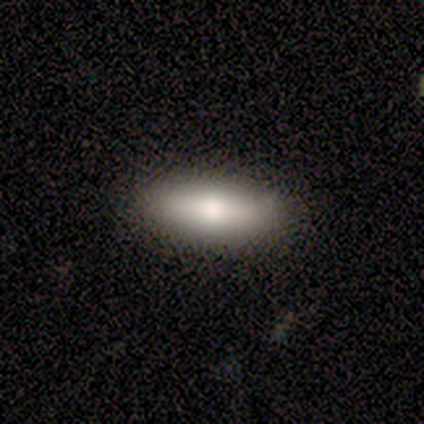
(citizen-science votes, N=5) A smooth galaxy with no disk features (100%) that is in between round and cigar-shaped (80%). Merging: none (100%).